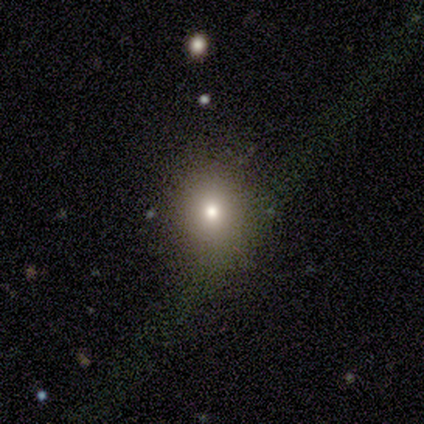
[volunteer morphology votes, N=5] Q: Smooth or featured?
A: smooth (60%); runner-up: featured or disk (20%)
Q: How rounded?
A: in between (67%); runner-up: round (33%)
Q: Merging?
A: none (75%); runner-up: minor disturbance (25%)